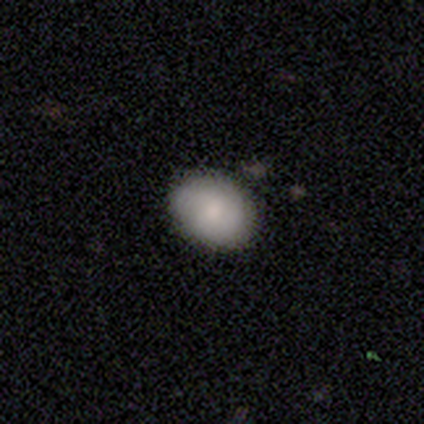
This appears to be a smooth galaxy with no disk features (80%) that is round (50%, tied with in between). Merging: none (100%).